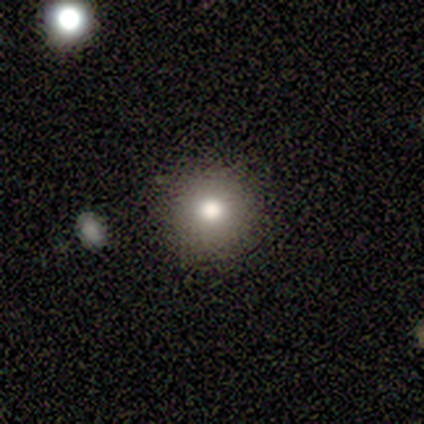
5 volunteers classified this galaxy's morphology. Volunteers were most divided on "smooth or featured": smooth: 60%, featured or disk: 20%, star or artifact: 20%. More confident: how rounded — round (100%); merging — none (100%).